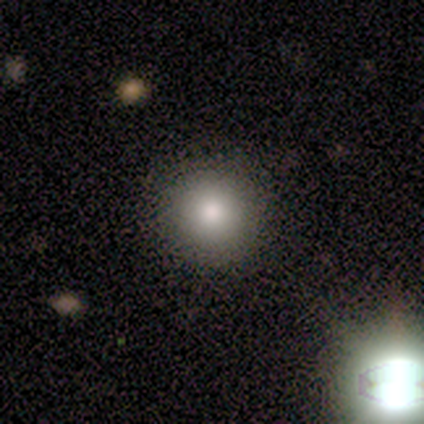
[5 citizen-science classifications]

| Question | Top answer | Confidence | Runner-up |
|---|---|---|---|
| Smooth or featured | smooth | 60% | featured or disk (40%) |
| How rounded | round | 100% | — |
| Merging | none | 100% | — |